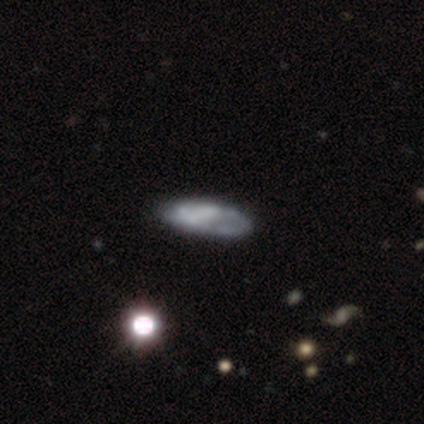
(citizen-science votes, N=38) Smooth or featured? 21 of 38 (55%) said featured or disk. Edge-on disk? 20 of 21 (95%) said no. Bar? 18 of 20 (90%) said no. Spiral arms? 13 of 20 (65%) said no. Bulge size? 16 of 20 (80%) said none. Merging? 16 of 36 (44%) said none.